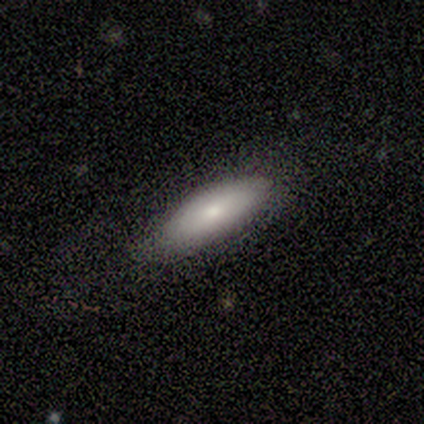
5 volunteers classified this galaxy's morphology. A smooth galaxy with no disk features (60%) that is cigar-shaped (67%). Merging: none (60%).